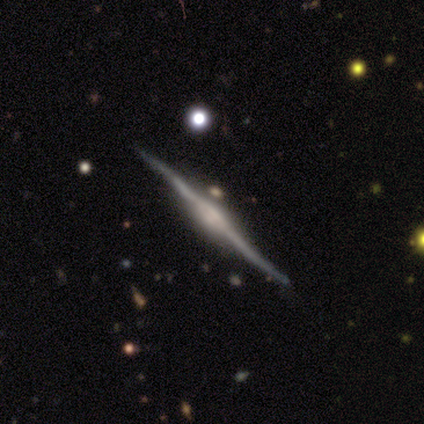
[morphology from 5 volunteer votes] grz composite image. It shows a featured or disk galaxy (80%) viewed edge-on (100%) with a boxy central bulge (50%, tied with rounded). Merging: none (100%).